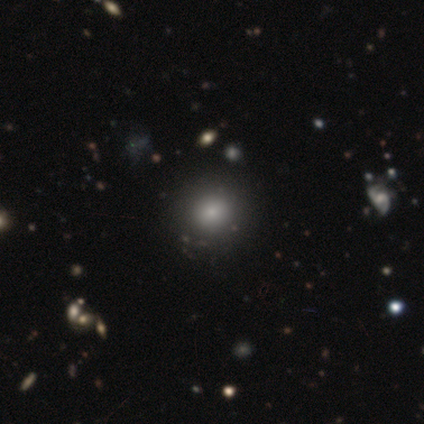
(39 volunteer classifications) Smooth or featured? smooth (79%)
How rounded? round (97%)
Merging? none (63%)